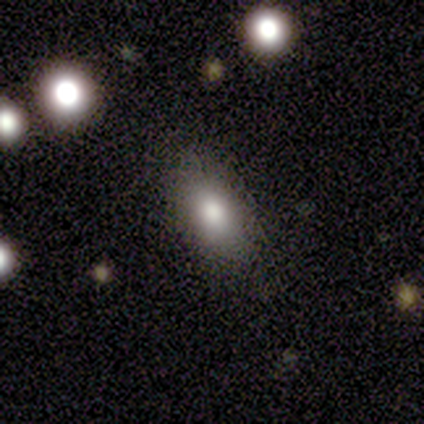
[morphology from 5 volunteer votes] smooth-or-featured: smooth: 100% | featured or disk: 0% | star or artifact: 0%
  how-rounded: in between: 100% | round: 0% | cigar-shaped: 0%
  merging: none: 80% | minor disturbance: 20% | major disturbance: 0% | merger: 0%